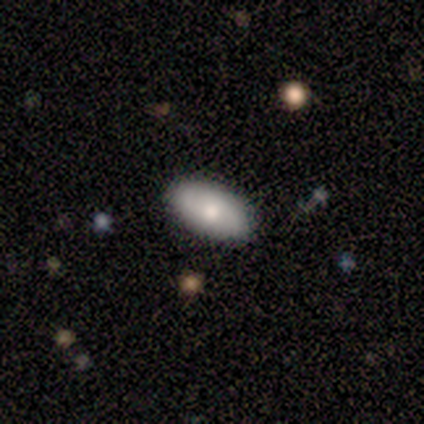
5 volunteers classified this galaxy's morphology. Q: Smooth or featured?
A: smooth (60%); runner-up: featured or disk (20%)
Q: How rounded?
A: in between (100%)
Q: Merging?
A: none (100%)